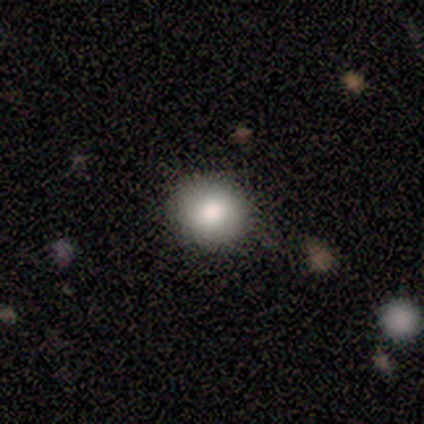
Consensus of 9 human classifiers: Morphology: type=smooth (100%); roundness=round (89%); merging=none (100%).